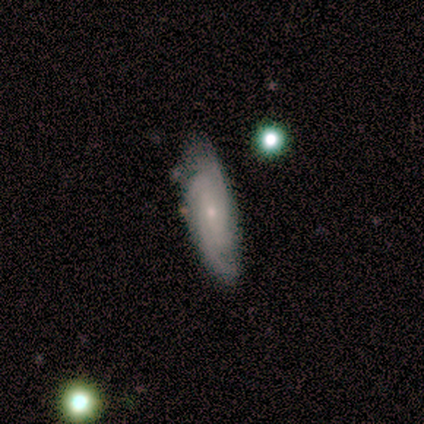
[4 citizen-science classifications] Smooth or featured: featured or disk — 50% (smooth — 25%)
Edge-on disk: no — 100%
Bar: no — 100%
Spiral arms: yes — 100%
Spiral winding: tight — 100%
Spiral arm count: can't tell — 100%
Bulge size: small — 100%
Merging: none — 100%